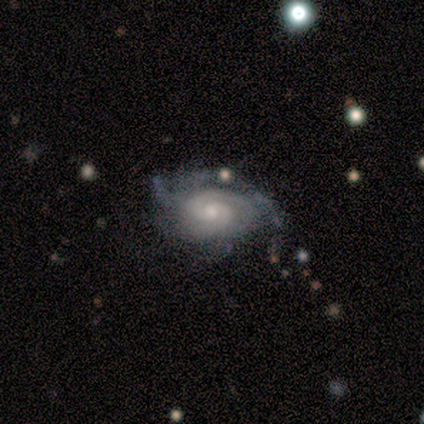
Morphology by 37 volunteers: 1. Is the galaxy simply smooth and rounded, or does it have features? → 95% featured or disk, 5% smooth, 0% star or artifact.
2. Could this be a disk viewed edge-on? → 91% no, 9% yes.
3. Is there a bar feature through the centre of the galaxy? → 72% no, 22% weak, 6% strong.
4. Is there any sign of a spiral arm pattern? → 100% yes, 0% no.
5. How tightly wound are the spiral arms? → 59% tight, 34% medium, 6% loose.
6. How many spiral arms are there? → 50% 2, 34% can't tell, 9% 3, 3% 1, 3% 4, 0% more than 4.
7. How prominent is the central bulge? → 62% small, 34% moderate, 3% none, 0% dominant, 0% large.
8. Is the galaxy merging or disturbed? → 59% none, 24% minor disturbance, 11% major disturbance, 5% merger.